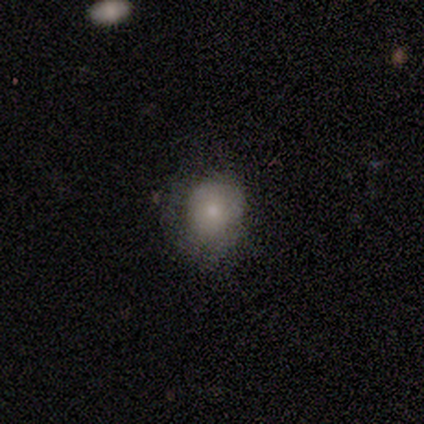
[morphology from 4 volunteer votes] A smooth galaxy with no disk features (50%, tied with featured or disk) that is round (50%, tied with in between). Merging: minor disturbance (50%).